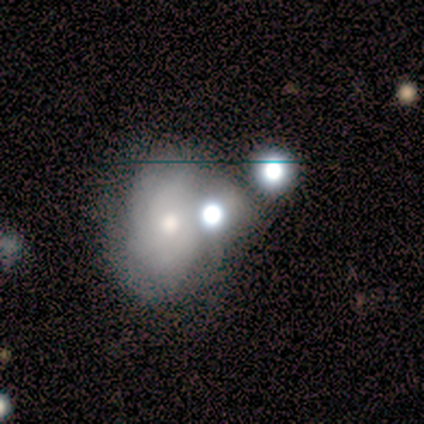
Volunteers were most divided on "merging": merger: 50%, none: 25%, minor disturbance: 25%, major disturbance: 0%. More confident: edge-on disk — no (100%); bar — no (67%); spiral arms — no (67%); bulge size — moderate (67%); smooth or featured — featured or disk (60%).